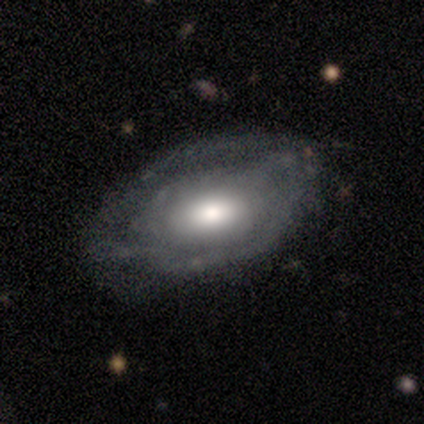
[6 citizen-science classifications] smooth-or-featured: featured or disk: 67% | smooth: 33% | star or artifact: 0%
  disk-edge-on: no: 100% | yes: 0%
    bar: no: 75% | weak: 25% | strong: 0%
    has-spiral-arms: yes: 50% (tied) | no: 50% (tied)
      spiral-winding: tight: 50% (tied) | loose: 50% (tied) | medium: 0%
      spiral-arm-count: 1: 100% | 2: 0% | 3: 0% | 4: 0% | more than 4: 0% | can't tell: 0%
    bulge-size: moderate: 75% | large: 25% | dominant: 0% | small: 0% | none: 0%
  merging: none: 67% | minor disturbance: 17% | merger: 17% | major disturbance: 0%